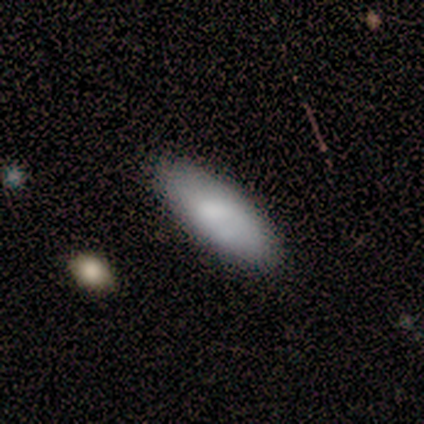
A smooth galaxy with no disk features (60%) that is in between round and cigar-shaped (100%).

Vote fractions:
- Smooth or featured? smooth: 60% / featured or disk: 20% / star or artifact: 20%
- How rounded? in between: 100% / round: 0% / cigar-shaped: 0%
- Merging? minor disturbance: 50% / none: 25% / major disturbance: 25% / merger: 0%